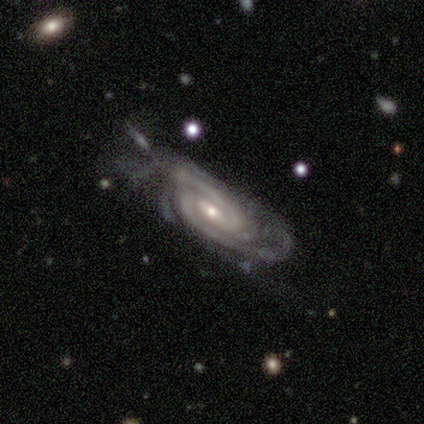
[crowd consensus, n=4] A featured or disk galaxy (100%) with a weak bar (75%), 2 (75%) tight (75%) spiral arms (100%) and a small central bulge (75%). Merging: none (75%).